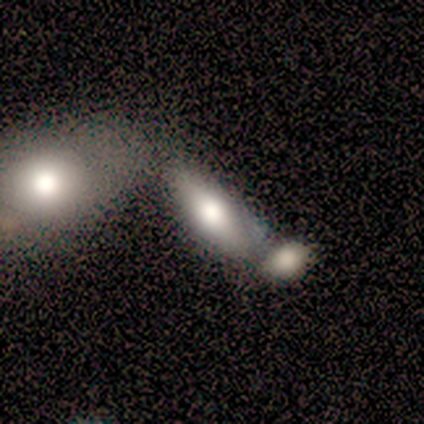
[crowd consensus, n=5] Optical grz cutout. It shows a smooth galaxy with no disk features (60%) that is in between round and cigar-shaped (100%). Merging: none (60%).